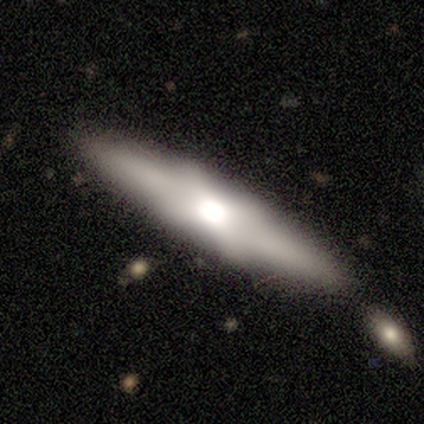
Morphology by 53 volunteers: Smooth or featured? featured or disk (62%)
Edge-on disk? yes (85%)
Edge-on bulge? rounded (54%)
Merging? none (71%)